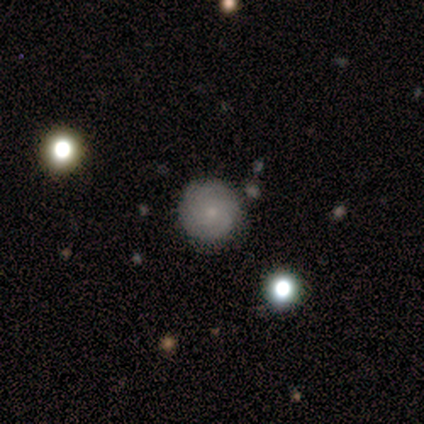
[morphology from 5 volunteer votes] Smooth or featured? 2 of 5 (40%, tied with featured or disk) said smooth. How rounded? 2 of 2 (100%) said round. Merging? 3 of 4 (75%) said none.